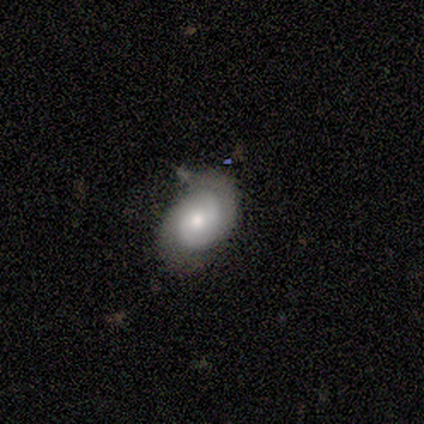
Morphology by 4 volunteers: Smooth or featured?
  - featured or disk: 100% *
  - smooth: 0%
  - star or artifact: 0%
Edge-on disk?
  - no: 100% *
  - yes: 0%
Bar?
  - no: 75% *
  - strong: 25%
  - weak: 0%
Spiral arms?
  - yes: 100% *
  - no: 0%
Spiral winding?
  - tight: 75% *
  - medium: 25%
  - loose: 0%
Spiral arm count?
  - 2: 75% *
  - can't tell: 25%
  - 1: 0%
  - 3: 0%
  - 4: 0%
  - more than 4: 0%
Bulge size?
  - moderate: 50% * (tied)
  - small: 50% * (tied)
  - dominant: 0%
  - large: 0%
  - none: 0%
Merging?
  - none: 100% *
  - minor disturbance: 0%
  - major disturbance: 0%
  - merger: 0%